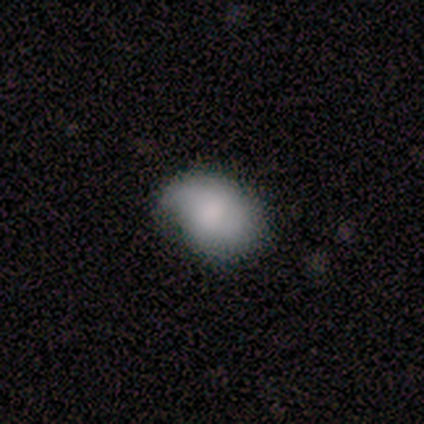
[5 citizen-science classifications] Smooth or featured? 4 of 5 (80%) said smooth. How rounded? 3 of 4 (75%) said in between. Merging? 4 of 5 (80%) said minor disturbance.